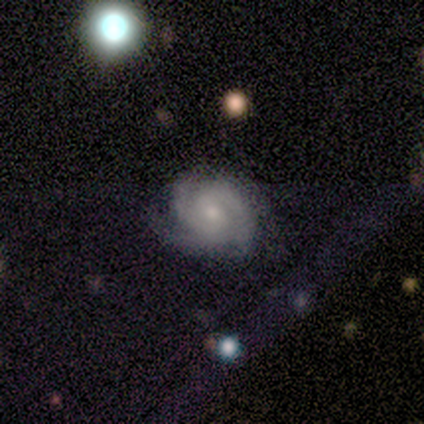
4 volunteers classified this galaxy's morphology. A featured or disk galaxy (75%) with no bar (67%), 3 (67%) tight (67%) spiral arms (100%) and a small central bulge (100%).

Vote fractions:
- Smooth or featured? featured or disk: 75% / smooth: 25% / star or artifact: 0%
- Edge-on disk? no: 100% / yes: 0%
- Bar? no: 67% / weak: 33% / strong: 0%
- Spiral arms? yes: 100% / no: 0%
- Spiral winding? tight: 67% / medium: 33% / loose: 0%
- Spiral arm count? 3: 67% / 2: 33% / 1: 0% / 4: 0% / more than 4: 0% / can't tell: 0%
- Bulge size? small: 100% / dominant: 0% / large: 0% / moderate: 0% / none: 0%
- Merging? none: 50% / minor disturbance: 25% / major disturbance: 25% / merger: 0%